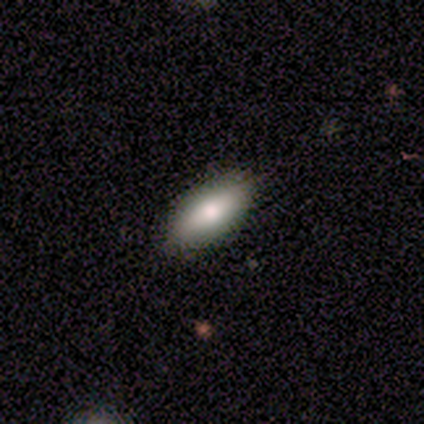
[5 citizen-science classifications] A smooth galaxy with no disk features (100%) that is in between round and cigar-shaped (80%).

Vote fractions:
- Smooth or featured? smooth: 100% / featured or disk: 0% / star or artifact: 0%
- How rounded? in between: 80% / cigar-shaped: 20% / round: 0%
- Merging? none: 80% / minor disturbance: 20% / major disturbance: 0% / merger: 0%